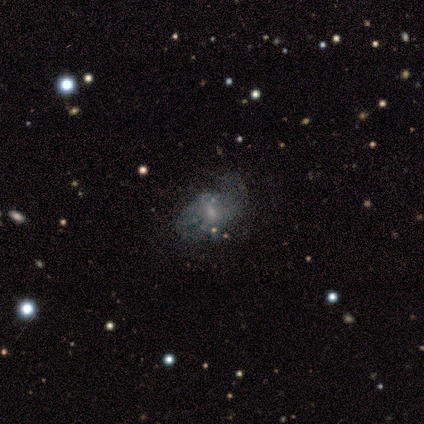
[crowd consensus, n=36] This is likely a featured or disk galaxy (64%). It is clearly not viewed edge-on (96%). Bar: possibly weak (55%). Spiral arm pattern: possibly yes (50%, tied with no). Spiral arm count: likely 2 (64%). Spiral winding: likely loose (64%). Central bulge: possibly small (45%). Merging: possibly none (46%).